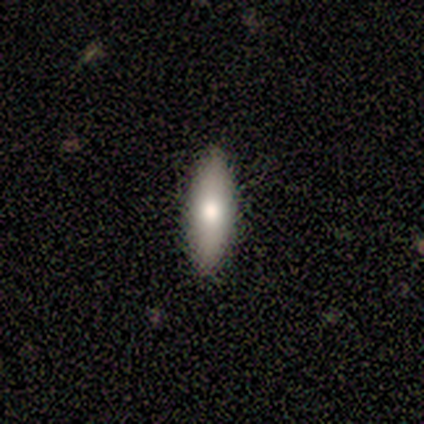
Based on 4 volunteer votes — Overall: smooth (50%, tied with featured or disk). How rounded: cigar-shaped (100%). Merging: none (100%).